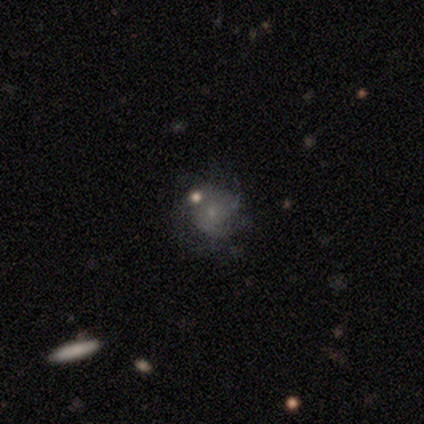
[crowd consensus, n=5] Q: Smooth or featured?
A: smooth (60%); runner-up: featured or disk (20%)
Q: How rounded?
A: round (100%)
Q: Merging?
A: none (75%); runner-up: minor disturbance (25%)